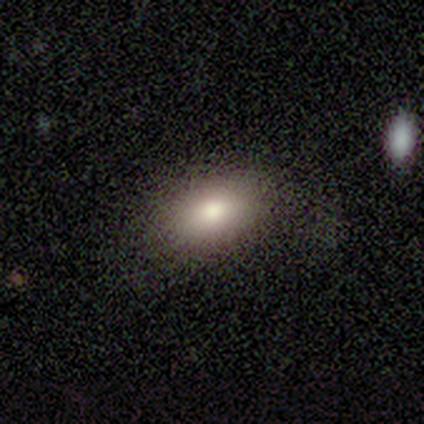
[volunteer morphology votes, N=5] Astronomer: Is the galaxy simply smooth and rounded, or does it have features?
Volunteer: smooth — 80%.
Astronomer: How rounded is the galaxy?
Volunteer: in between — 100%.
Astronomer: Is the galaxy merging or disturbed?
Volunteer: none — 100%.